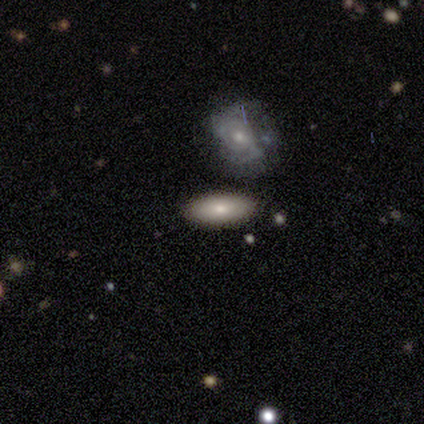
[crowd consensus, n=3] Smooth or featured? 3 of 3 (100%) said smooth. How rounded? 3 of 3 (100%) said in between. Merging? 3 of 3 (100%) said none.